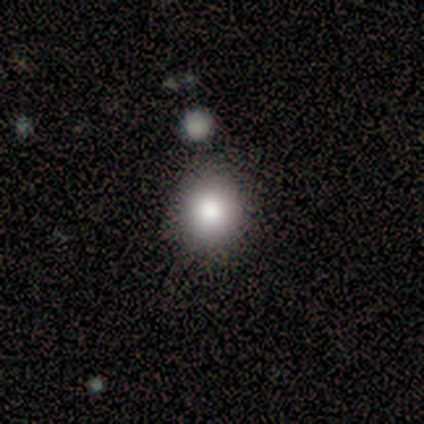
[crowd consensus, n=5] Smooth or featured? smooth (80%)
How rounded? round (75%)
Merging? none (60%)